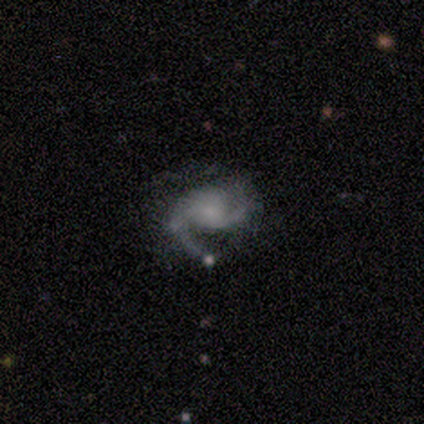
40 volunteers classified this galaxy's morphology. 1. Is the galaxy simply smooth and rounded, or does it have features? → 88% featured or disk, 10% smooth, 2% star or artifact.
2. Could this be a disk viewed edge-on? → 100% no, 0% yes.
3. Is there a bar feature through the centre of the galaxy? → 80% no, 14% weak, 6% strong.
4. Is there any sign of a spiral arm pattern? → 97% yes, 3% no.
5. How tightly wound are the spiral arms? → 59% medium, 21% tight, 21% loose.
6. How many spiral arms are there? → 88% 2, 6% 1, 6% can't tell, 0% 3, 0% 4, 0% more than 4.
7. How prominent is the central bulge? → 49% small, 43% none, 6% moderate, 3% dominant, 0% large.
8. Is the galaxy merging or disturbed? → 44% none, 41% minor disturbance, 10% major disturbance, 5% merger.